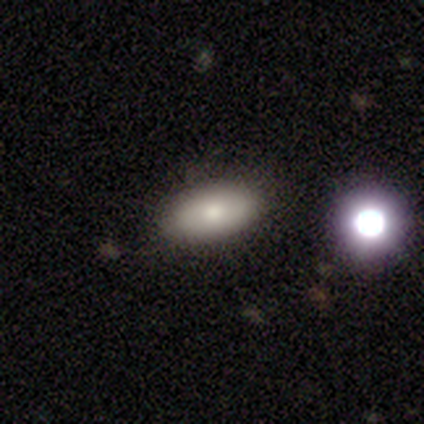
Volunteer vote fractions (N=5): A smooth galaxy with no disk features (100%) that is in between round and cigar-shaped (100%).

Vote fractions:
- Smooth or featured? smooth: 100% / featured or disk: 0% / star or artifact: 0%
- How rounded? in between: 100% / round: 0% / cigar-shaped: 0%
- Merging? none: 60% / minor disturbance: 40% / major disturbance: 0% / merger: 0%